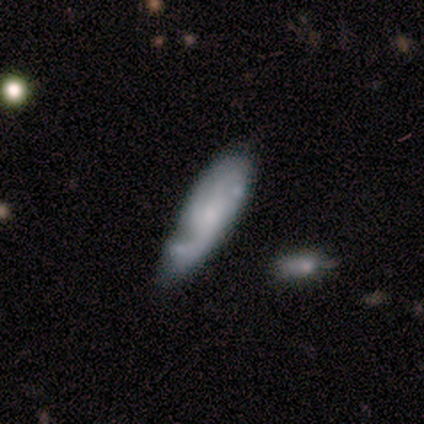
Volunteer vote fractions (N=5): A smooth galaxy with no disk features (60%) that is in between round and cigar-shaped (67%).

Vote fractions:
- Smooth or featured? smooth: 60% / featured or disk: 40% / star or artifact: 0%
- How rounded? in between: 67% / cigar-shaped: 33% / round: 0%
- Merging? major disturbance: 40% (tied) / merger: 40% (tied) / none: 20% / minor disturbance: 0%